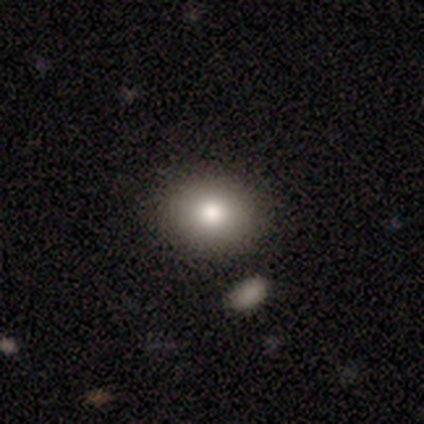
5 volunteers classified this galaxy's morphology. Smooth or featured?
  - smooth: 100% *
  - featured or disk: 0%
  - star or artifact: 0%
How rounded?
  - round: 60% *
  - in between: 40%
  - cigar-shaped: 0%
Merging?
  - none: 80% *
  - merger: 20%
  - minor disturbance: 0%
  - major disturbance: 0%